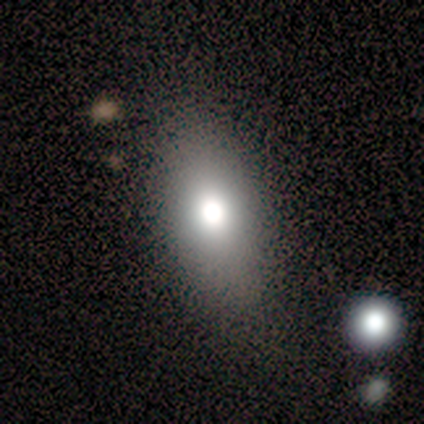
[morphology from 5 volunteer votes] Q: Smooth or featured?
A: smooth (60%); runner-up: star or artifact (40%)
Q: How rounded?
A: in between (67%); runner-up: round (33%)
Q: Merging?
A: none (67%); runner-up: minor disturbance (33%)